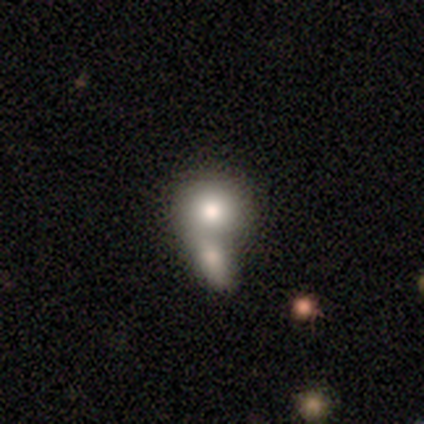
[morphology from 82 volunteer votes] Smooth or featured? 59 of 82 (72%) said smooth. How rounded? 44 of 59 (75%) said round. Merging? 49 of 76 (64%) said merger.